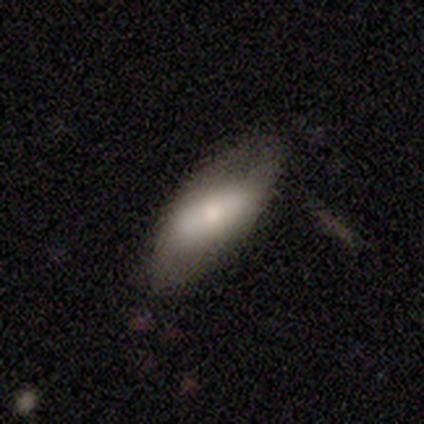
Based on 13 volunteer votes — A smooth galaxy with no disk features (54%) that is in between round and cigar-shaped (100%). Merging: none (73%).